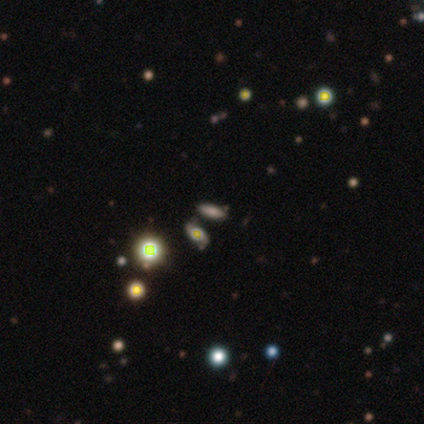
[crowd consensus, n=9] Morphology: type=smooth (44%); roundness=round (50%, tied with cigar-shaped); merging=none (83%).